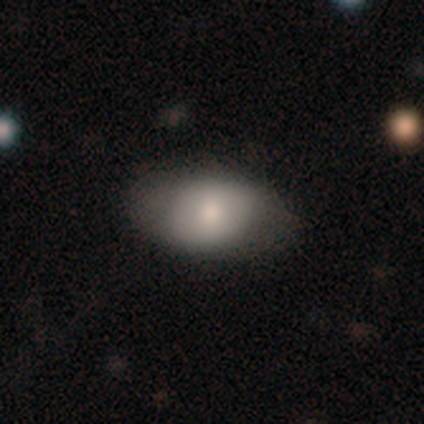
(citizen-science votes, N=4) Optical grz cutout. It shows a smooth galaxy with no disk features (50%, tied with featured or disk) that is in between round and cigar-shaped (100%). Merging: none (75%).